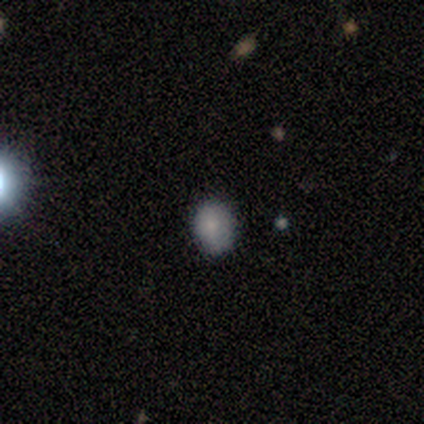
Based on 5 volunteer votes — This appears to be a smooth galaxy with no disk features (80%) that is in between round and cigar-shaped (75%). Merging: none (75%).